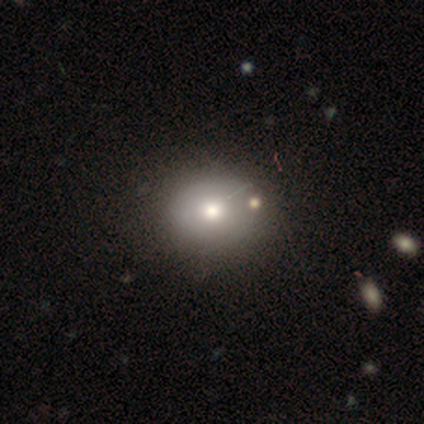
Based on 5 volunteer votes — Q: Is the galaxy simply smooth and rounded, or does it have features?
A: featured or disk — 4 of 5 (80%).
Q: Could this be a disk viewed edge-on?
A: yes — 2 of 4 (50%, tied with no).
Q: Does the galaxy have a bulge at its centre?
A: rounded — 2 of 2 (100%).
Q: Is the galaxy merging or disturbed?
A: none — 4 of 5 (80%).